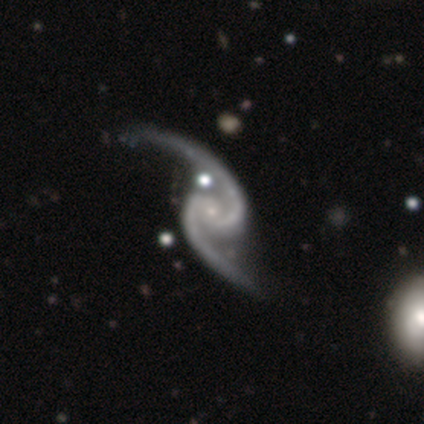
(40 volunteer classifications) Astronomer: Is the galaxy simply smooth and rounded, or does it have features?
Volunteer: featured or disk — 95%.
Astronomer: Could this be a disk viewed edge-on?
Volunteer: no — 100%.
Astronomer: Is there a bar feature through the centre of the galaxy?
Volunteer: no — 53% (runner-up: weak, 29%).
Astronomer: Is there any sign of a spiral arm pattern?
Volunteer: yes — 100%.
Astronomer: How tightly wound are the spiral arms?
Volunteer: loose — 58% (runner-up: medium, 37%).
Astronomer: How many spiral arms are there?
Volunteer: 2 — 97%.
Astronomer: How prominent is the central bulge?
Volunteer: small — 89%.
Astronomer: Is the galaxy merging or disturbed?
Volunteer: none — 62%.